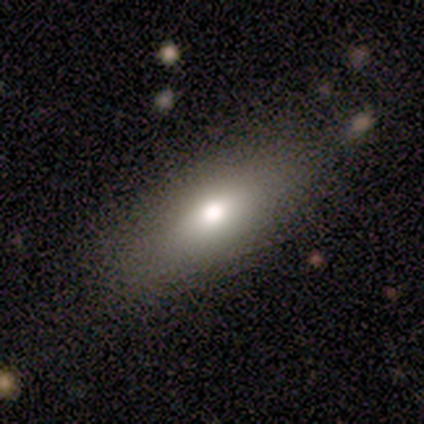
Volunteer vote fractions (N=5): Morphology: type=smooth (60%); roundness=in between (100%); merging=none (100%).